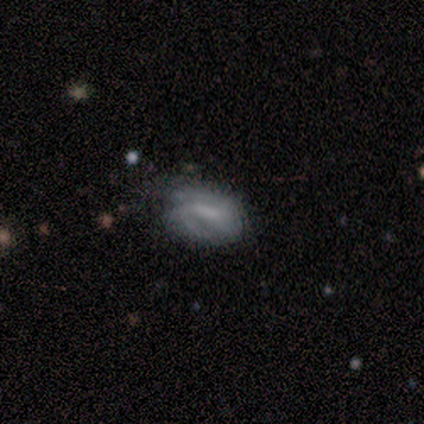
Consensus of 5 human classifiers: This appears to be a smooth galaxy with no disk features (40%, tied with featured or disk) that is in between round and cigar-shaped (100%). Merging: minor disturbance (50%, tied with major disturbance).